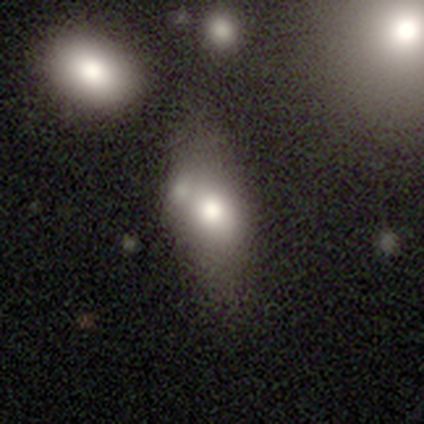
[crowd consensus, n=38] Smooth or featured?
  - smooth: 74% *
  - featured or disk: 16%
  - star or artifact: 11%
How rounded?
  - in between: 75% *
  - round: 14%
  - cigar-shaped: 11%
Merging?
  - none: 53% *
  - minor disturbance: 26%
  - merger: 15%
  - major disturbance: 6%